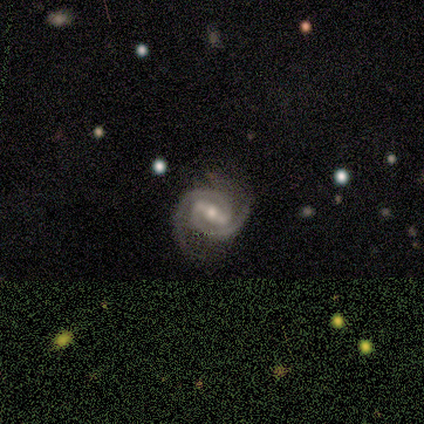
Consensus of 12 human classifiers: Morphology: type=featured or disk (100%); edge-on=no (92%); bar=strong (91%); spiral arms=yes (100%); winding=tight (82%); arm count=2 (100%); bulge=moderate (55%); merging=none (83%).